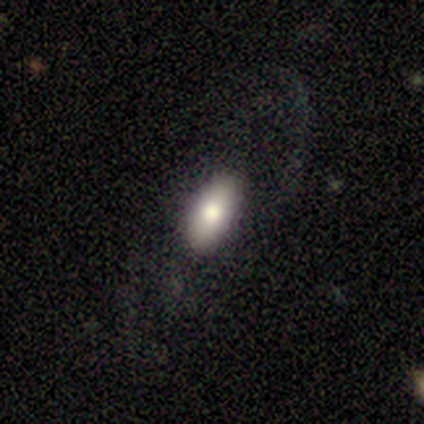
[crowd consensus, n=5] smooth_or_featured: featured or disk (p=0.60) [alt: smooth p=0.40]
disk_edge_on: no (p=1.00)
bar: no (p=1.00)
has_spiral_arms: yes (p=0.67) [alt: no p=0.33]
spiral_winding: tight (p=0.50) [tied with: medium p=0.50]
spiral_arm_count: 1 (p=0.50) [tied with: 2 p=0.50]
bulge_size: large (p=0.67) [alt: moderate p=0.33]
merging: none (p=0.60) [alt: minor disturbance p=0.20]